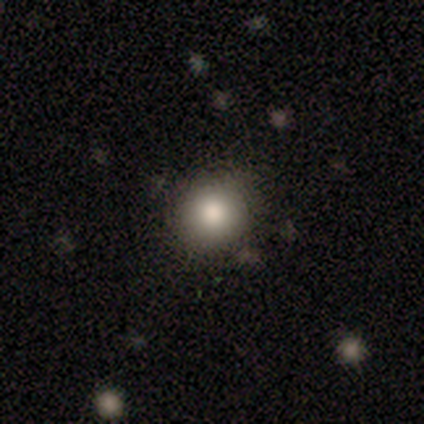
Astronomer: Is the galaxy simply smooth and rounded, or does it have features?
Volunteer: smooth — 100%.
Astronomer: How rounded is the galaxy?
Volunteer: round — 100%.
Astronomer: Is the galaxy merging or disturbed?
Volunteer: none — 100%.